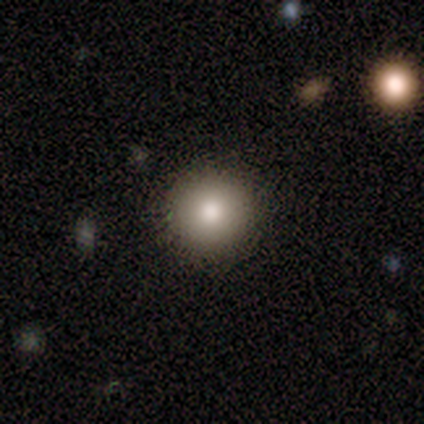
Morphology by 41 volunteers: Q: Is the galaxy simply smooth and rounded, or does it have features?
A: smooth — 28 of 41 (68%).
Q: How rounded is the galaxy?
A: round — 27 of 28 (96%).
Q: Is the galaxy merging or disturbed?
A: none — 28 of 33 (85%).